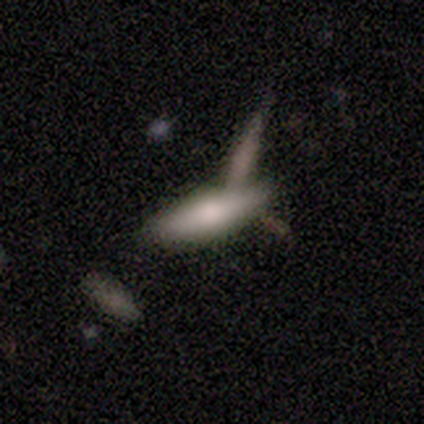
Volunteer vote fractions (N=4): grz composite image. It shows a smooth galaxy with no disk features (100%) that is in between round and cigar-shaped (75%). Merging: none (75%).